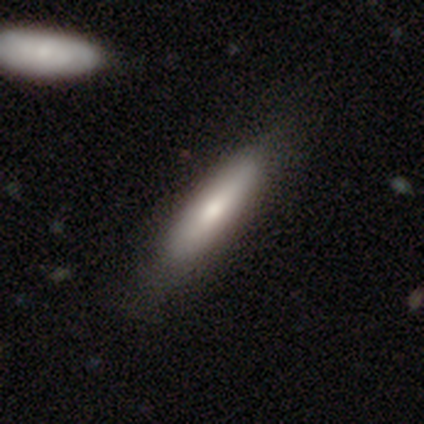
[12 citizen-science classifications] Q: Smooth or featured?
A: smooth (67%); runner-up: featured or disk (33%)
Q: How rounded?
A: in between (62%); runner-up: cigar-shaped (38%)
Q: Merging?
A: none (83%); runner-up: minor disturbance (8%)